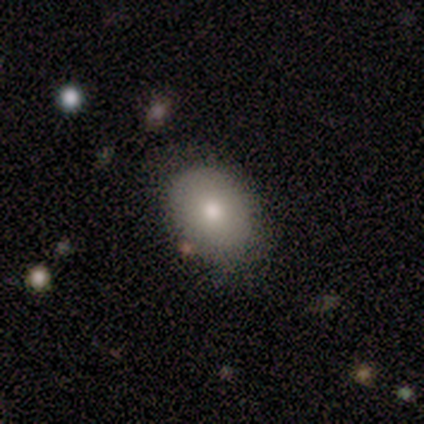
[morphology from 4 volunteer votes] This appears to be a smooth galaxy with no disk features (100%) that is in between round and cigar-shaped (75%). Merging: none (75%).